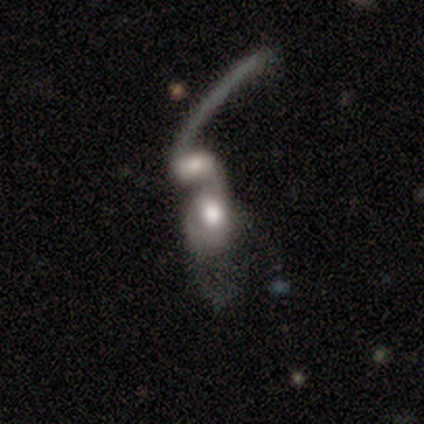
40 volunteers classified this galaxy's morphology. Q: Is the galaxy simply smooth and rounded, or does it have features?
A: featured or disk — 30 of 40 (75%).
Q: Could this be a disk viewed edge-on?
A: no — 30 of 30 (100%).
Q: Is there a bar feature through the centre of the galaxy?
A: no — 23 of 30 (77%).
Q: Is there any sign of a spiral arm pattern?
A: yes — 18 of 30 (60%).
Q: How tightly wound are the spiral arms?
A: loose — 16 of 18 (89%).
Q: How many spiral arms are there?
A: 2 — 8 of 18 (44%).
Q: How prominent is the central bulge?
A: moderate — 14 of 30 (47%).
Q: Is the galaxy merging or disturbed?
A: merger — 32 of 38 (84%).